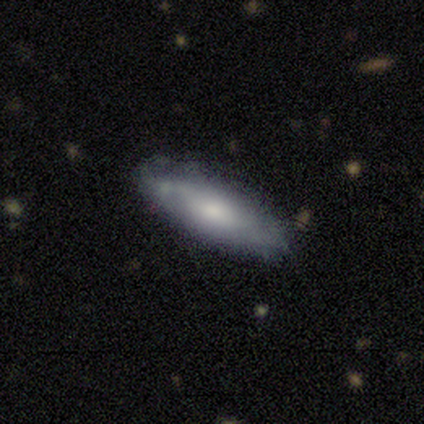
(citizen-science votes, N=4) Q: Smooth or featured?
A: smooth (50%); runner-up: featured or disk (25%)
Q: How rounded?
A: in between (100%)
Q: Merging?
A: none (67%); runner-up: minor disturbance (33%)